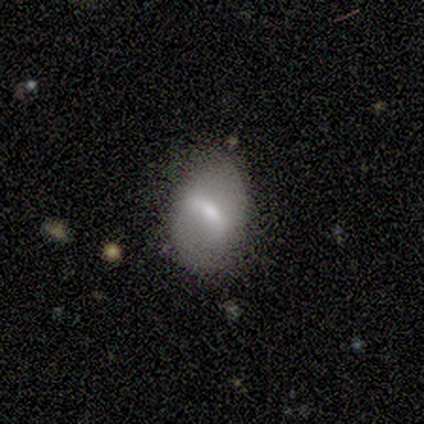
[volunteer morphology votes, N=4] Smooth or featured: featured or disk — 75% (smooth — 25%)
Edge-on disk: no — 100%
Bar: weak — 67% (strong — 33%)
Spiral arms: no — 100%
Bulge size: small — 67% (moderate — 33%)
Merging: minor disturbance — 75% (none — 25%)